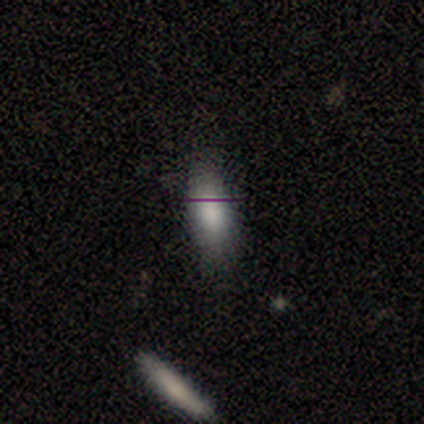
Smooth or featured: smooth — 80% (star or artifact — 20%)
How rounded: in between — 88% (cigar-shaped — 12%)
Merging: none — 75% (minor disturbance — 25%)